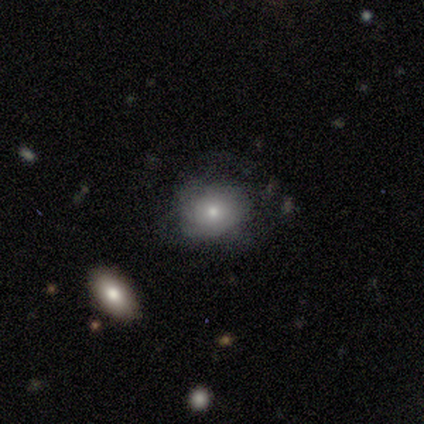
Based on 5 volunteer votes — Morphology: type=smooth (80%); roundness=round (50%, tied with in between); merging=none (80%).